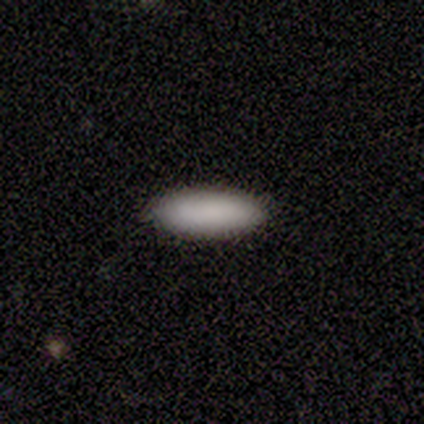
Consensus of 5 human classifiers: Overall: smooth (100%). How rounded: in between (100%). Merging: none (100%).